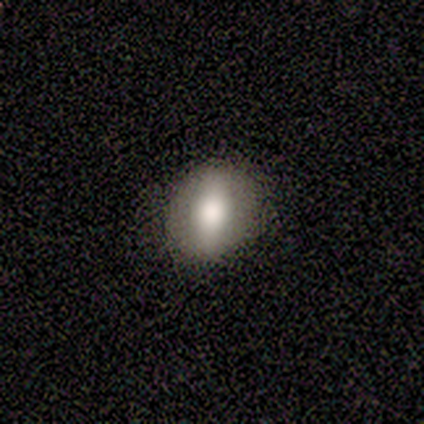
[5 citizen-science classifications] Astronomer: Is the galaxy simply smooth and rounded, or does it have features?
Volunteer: smooth — 80%.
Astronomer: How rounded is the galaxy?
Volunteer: round — 50%, tied with in between at 50%.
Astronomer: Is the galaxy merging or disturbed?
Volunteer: none — 100%.